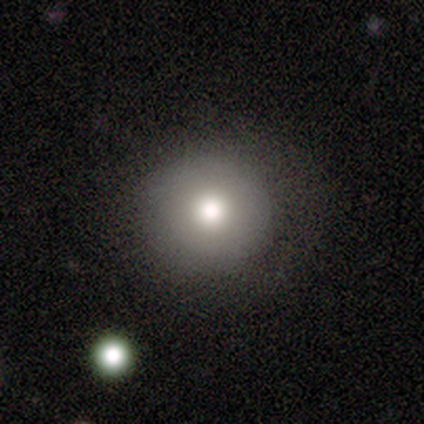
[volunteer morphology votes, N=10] smooth-or-featured: smooth: 50% (tied) | featured or disk: 50% (tied) | star or artifact: 0%
  how-rounded: round: 80% | in between: 20% | cigar-shaped: 0%
  merging: none: 100% | minor disturbance: 0% | major disturbance: 0% | merger: 0%